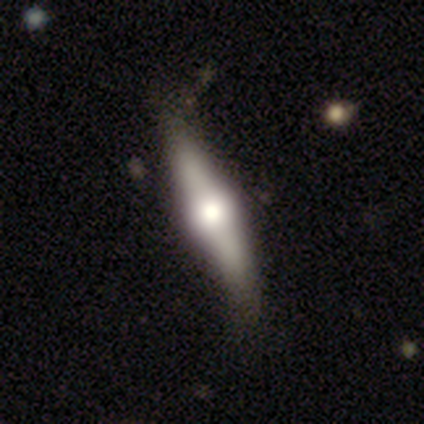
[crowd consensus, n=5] Volunteers were most divided on "merging": minor disturbance: 60%, none: 40%, major disturbance: 0%, merger: 0%. More confident: edge-on bulge — rounded (100%); smooth or featured — featured or disk (80%); edge-on disk — yes (75%).